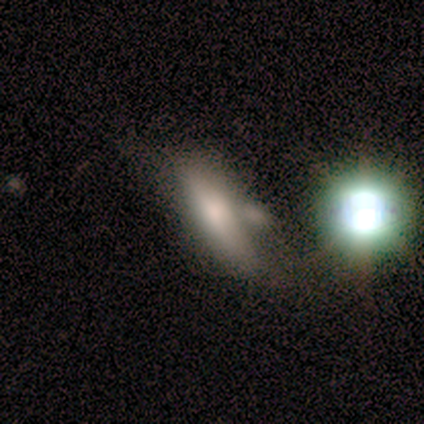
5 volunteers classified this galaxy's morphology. A smooth galaxy with no disk features (60%) that is in between round and cigar-shaped (67%).

Vote fractions:
- Smooth or featured? smooth: 60% / featured or disk: 20% / star or artifact: 20%
- How rounded? in between: 67% / cigar-shaped: 33% / round: 0%
- Merging? none: 50% / major disturbance: 25% / merger: 25% / minor disturbance: 0%